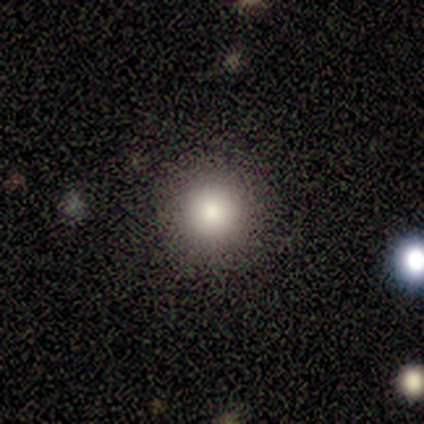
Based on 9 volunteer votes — smooth-or-featured: smooth: 44% (tied) | star or artifact: 44% (tied) | featured or disk: 11%
  how-rounded: round: 100% | in between: 0% | cigar-shaped: 0%
  merging: none: 100% | minor disturbance: 0% | major disturbance: 0% | merger: 0%